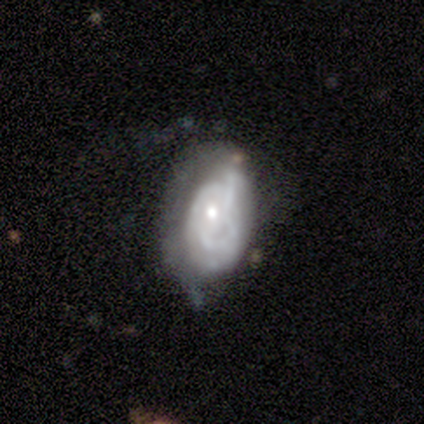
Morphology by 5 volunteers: Overall: featured or disk (100%). Edge-on disk: no (100%). Bar: no (100%). Spiral arms: yes (60%; no 40%). Spiral arm count: 2 (67%; can't tell 33%). Spiral winding: tight (67%; loose 33%). Bulge size: small (80%). Merging: none (40%, tied with major disturbance).